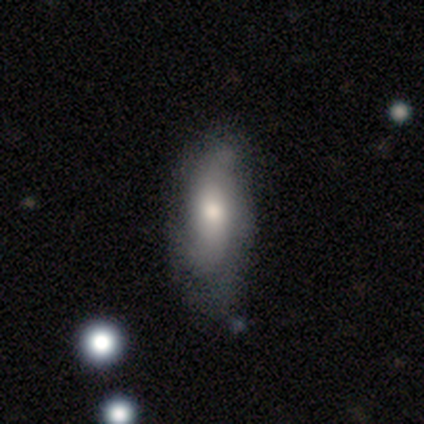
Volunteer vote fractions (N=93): Q: Smooth or featured?
A: featured or disk (51%); runner-up: smooth (43%)
Q: Edge-on disk?
A: no (94%); runner-up: yes (6%)
Q: Bar?
A: no (55%); runner-up: weak (39%)
Q: Spiral arms?
A: yes (75%); runner-up: no (25%)
Q: Spiral winding?
A: loose (55%); runner-up: tight (30%)
Q: Spiral arm count?
A: 2 (64%); runner-up: can't tell (27%)
Q: Bulge size?
A: moderate (61%); runner-up: small (27%)
Q: Merging?
A: none (56%); runner-up: minor disturbance (36%)